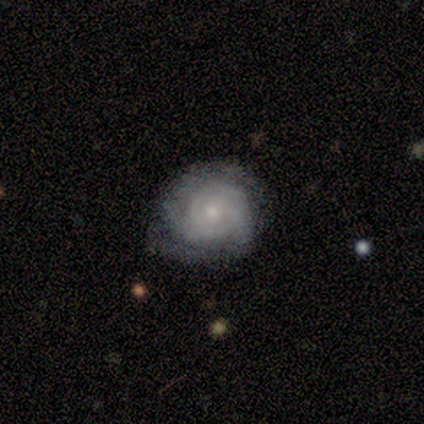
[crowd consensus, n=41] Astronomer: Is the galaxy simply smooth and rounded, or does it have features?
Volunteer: featured or disk — 80%.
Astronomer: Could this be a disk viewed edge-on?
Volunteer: no — 100%.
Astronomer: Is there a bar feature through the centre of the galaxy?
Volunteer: no — 91%.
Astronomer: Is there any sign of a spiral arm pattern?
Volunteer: yes — 88%.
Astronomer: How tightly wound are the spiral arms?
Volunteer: tight — 76%.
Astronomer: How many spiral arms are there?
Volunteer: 2 — 38%, tied with can't tell at 38%.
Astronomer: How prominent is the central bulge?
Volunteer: small — 58%.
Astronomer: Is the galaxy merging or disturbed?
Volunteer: none — 59% (runner-up: minor disturbance, 36%).